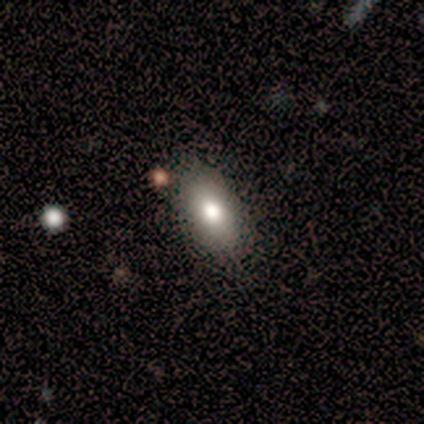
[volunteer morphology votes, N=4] A smooth galaxy with no disk features (75%) that is in between round and cigar-shaped (67%). Merging: none (75%).